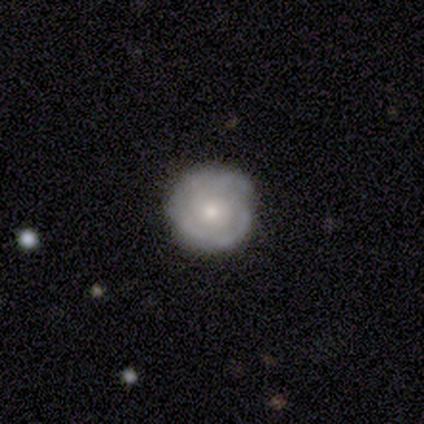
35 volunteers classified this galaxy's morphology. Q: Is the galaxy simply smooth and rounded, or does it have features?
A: featured or disk — 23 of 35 (66%).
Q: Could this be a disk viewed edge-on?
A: no — 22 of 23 (96%).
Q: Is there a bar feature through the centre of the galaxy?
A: no — 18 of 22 (82%).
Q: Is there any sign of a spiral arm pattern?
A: yes — 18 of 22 (82%).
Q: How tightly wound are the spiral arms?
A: tight — 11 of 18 (61%).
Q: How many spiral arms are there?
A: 2 — 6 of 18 (33%, tied with can't tell).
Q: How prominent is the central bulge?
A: small — 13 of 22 (59%).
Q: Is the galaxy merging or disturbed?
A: none — 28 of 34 (82%).